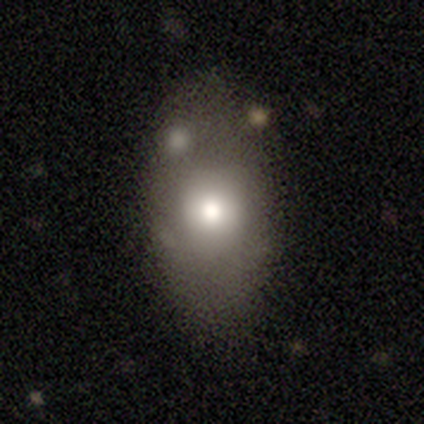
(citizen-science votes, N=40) Morphology: type=smooth (68%); roundness=in between (93%); merging=none (75%).